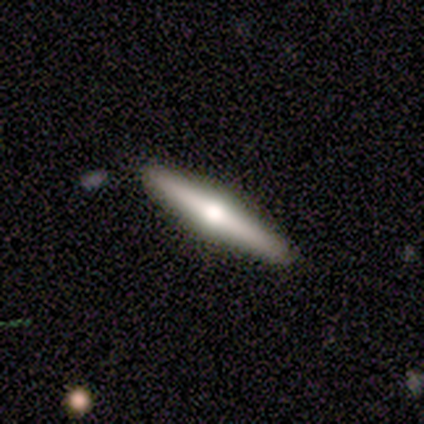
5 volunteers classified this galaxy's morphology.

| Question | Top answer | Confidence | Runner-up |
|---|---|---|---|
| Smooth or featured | featured or disk | 80% | smooth (20%) |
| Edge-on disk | yes | 100% | — |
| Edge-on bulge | rounded | 100% | — |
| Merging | none | 100% | — |